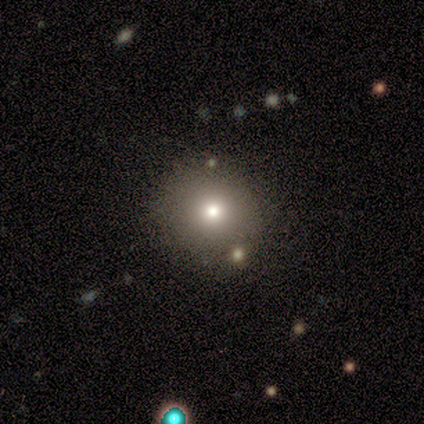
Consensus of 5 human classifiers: A smooth galaxy with no disk features (80%) that is round (100%).

Vote fractions:
- Smooth or featured? smooth: 80% / star or artifact: 20% / featured or disk: 0%
- How rounded? round: 100% / in between: 0% / cigar-shaped: 0%
- Merging? none: 75% / minor disturbance: 25% / major disturbance: 0% / merger: 0%